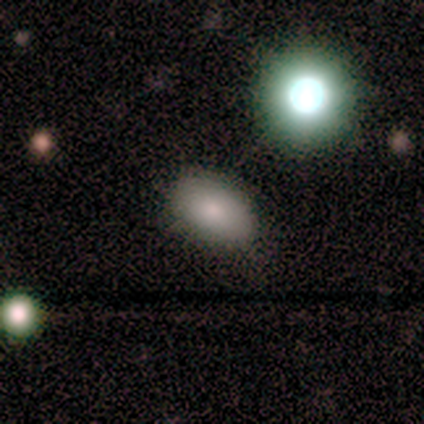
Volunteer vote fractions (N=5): Smooth or featured: smooth — 80% (star or artifact — 20%)
How rounded: in between — 100%
Merging: none — 50% (tied with minor disturbance — 50%)